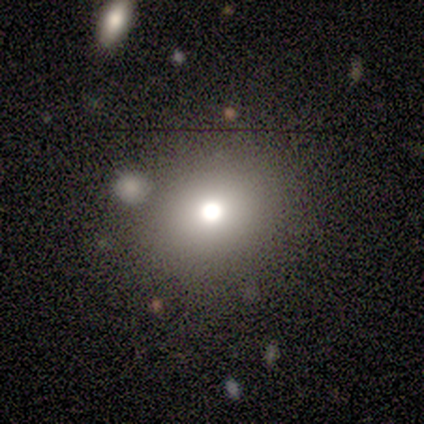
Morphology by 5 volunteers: Smooth or featured: smooth — 80% (star or artifact — 20%)
How rounded: round — 75% (in between — 25%)
Merging: none — 100%